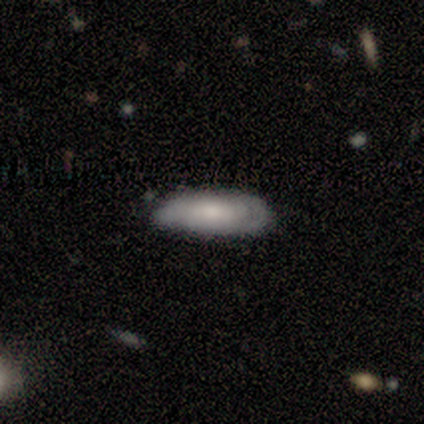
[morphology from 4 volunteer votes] Volunteers were most divided on "edge-on disk" (2-way tie): yes: 50%, no: 50%. More confident: edge-on bulge — boxy (100%); merging — none (67%); smooth or featured — featured or disk (50%).